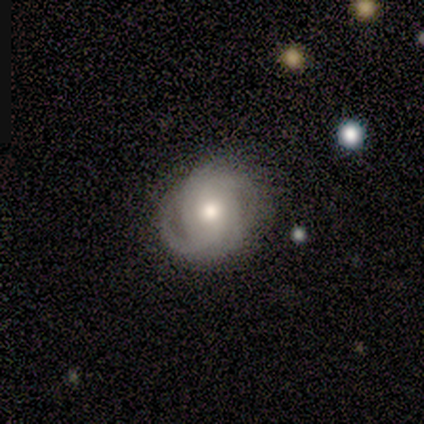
Q: Smooth or featured?
A: featured or disk (60%); runner-up: smooth (20%)
Q: Edge-on disk?
A: no (100%)
Q: Bar?
A: no (100%)
Q: Spiral arms?
A: yes (67%); runner-up: no (33%)
Q: Spiral winding?
A: tight (50%); tied with: medium (50%)
Q: Spiral arm count?
A: 2 (50%); tied with: can't tell (50%)
Q: Bulge size?
A: moderate (67%); runner-up: small (33%)
Q: Merging?
A: none (75%); runner-up: minor disturbance (25%)